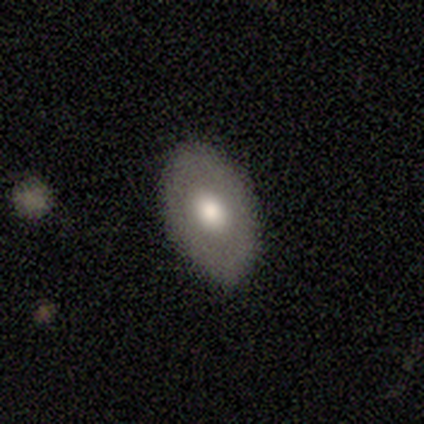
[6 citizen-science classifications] Smooth or featured? 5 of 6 (83%) said smooth. How rounded? 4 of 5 (80%) said in between. Merging? 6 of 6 (100%) said none.